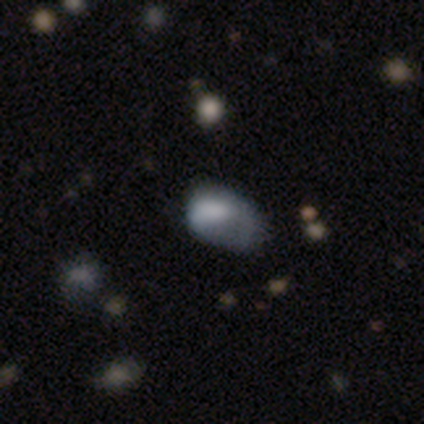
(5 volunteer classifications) A smooth galaxy with no disk features (60%) that is in between round and cigar-shaped (67%). Merging: minor disturbance (75%).